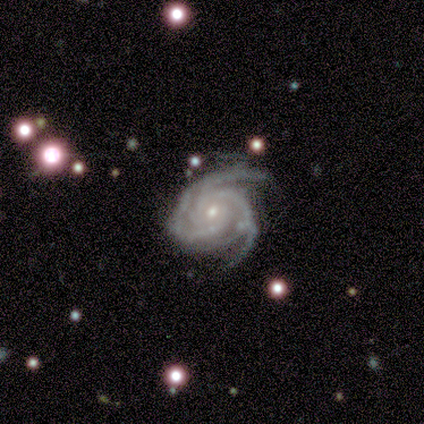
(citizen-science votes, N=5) Overall: featured or disk (100%). Edge-on disk: no (100%). Bar: no (80%). Spiral arms: yes (100%). Spiral arm count: 3 (60%; 2 40%). Spiral winding: tight (80%). Bulge size: small (60%; moderate 40%). Merging: none (40%, tied with minor disturbance).